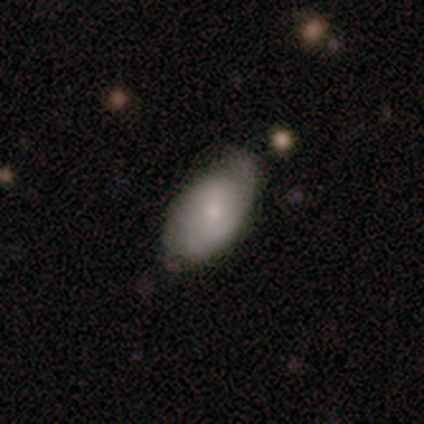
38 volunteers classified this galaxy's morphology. Q: Smooth or featured?
A: smooth (63%); runner-up: featured or disk (32%)
Q: How rounded?
A: in between (88%); runner-up: round (8%)
Q: Merging?
A: none (56%); runner-up: minor disturbance (36%)